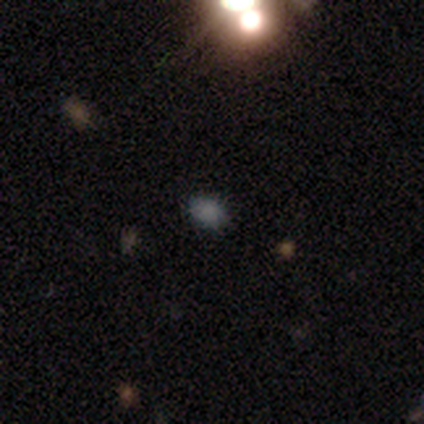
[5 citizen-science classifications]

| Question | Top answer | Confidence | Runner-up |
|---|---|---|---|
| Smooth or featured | star or artifact | 60% | smooth (20%) |